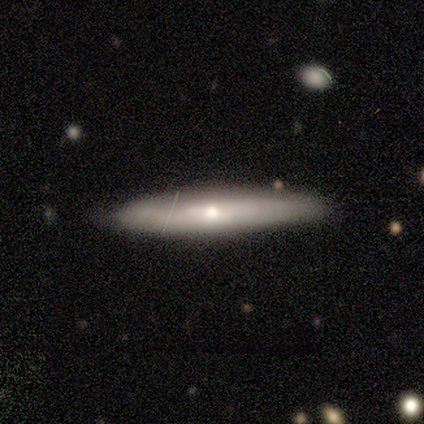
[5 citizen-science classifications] Smooth or featured? 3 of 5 (60%) said featured or disk. Edge-on disk? 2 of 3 (67%) said yes. Edge-on bulge? 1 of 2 (50%, tied with rounded) said none. Merging? 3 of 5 (60%) said none.